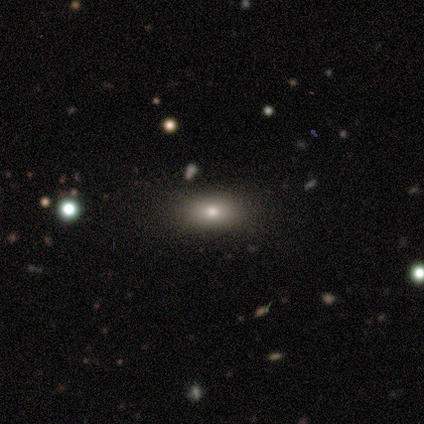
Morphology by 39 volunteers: Volunteers were most divided on "smooth or featured": smooth: 72%, featured or disk: 15%, star or artifact: 13%. More confident: merging — none (82%); how rounded — in between (75%).